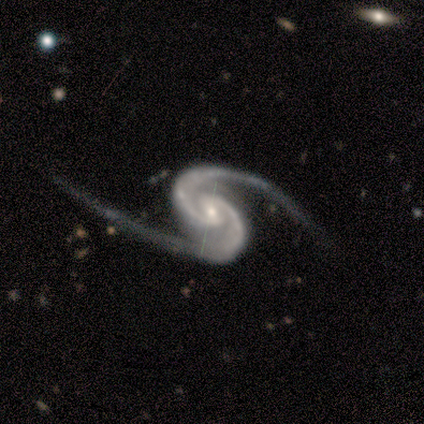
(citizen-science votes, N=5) Volunteers were most divided on "bar" (2-way tie): strong: 40%, weak: 40%, no: 20%. More confident: smooth or featured — featured or disk (100%); edge-on disk — no (100%); spiral arms — yes (100%); spiral arm count — 2 (100%); spiral winding — loose (80%); merging — none (80%); bulge size — small (60%).